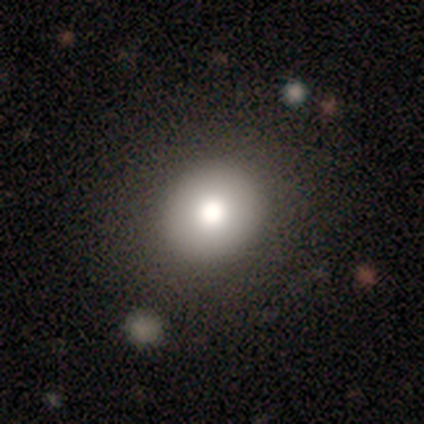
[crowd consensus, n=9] Q: Smooth or featured?
A: smooth (78%); runner-up: featured or disk (22%)
Q: How rounded?
A: round (100%)
Q: Merging?
A: none (100%)